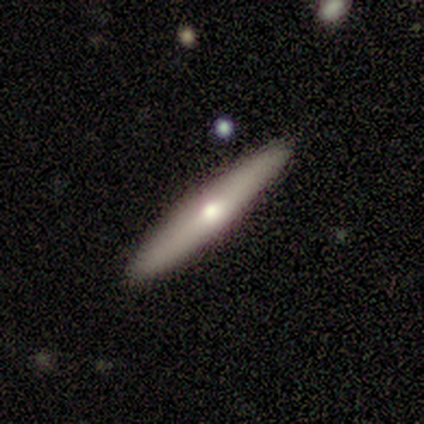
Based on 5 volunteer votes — Smooth or featured?
  - smooth: 60% *
  - featured or disk: 40%
  - star or artifact: 0%
How rounded?
  - cigar-shaped: 100% *
  - round: 0%
  - in between: 0%
Merging?
  - none: 100% *
  - minor disturbance: 0%
  - major disturbance: 0%
  - merger: 0%